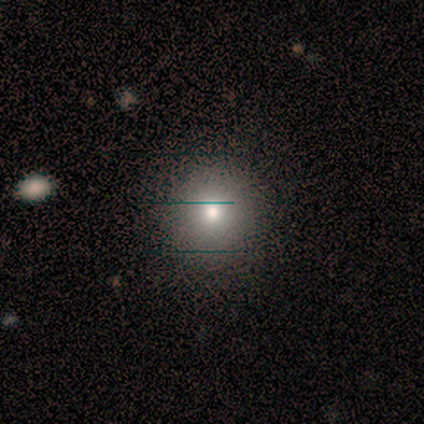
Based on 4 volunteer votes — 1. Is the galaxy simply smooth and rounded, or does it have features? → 100% smooth, 0% featured or disk, 0% star or artifact.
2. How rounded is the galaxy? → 100% round, 0% in between, 0% cigar-shaped.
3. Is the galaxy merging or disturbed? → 100% none, 0% minor disturbance, 0% major disturbance, 0% merger.